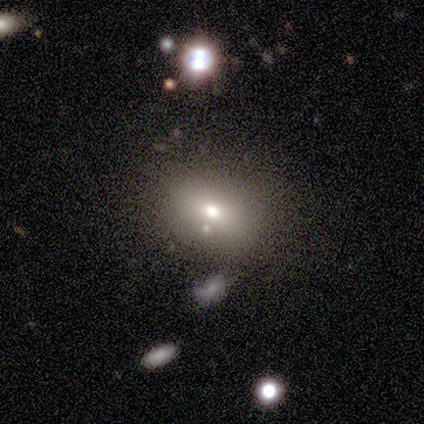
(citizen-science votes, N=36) Q: Smooth or featured?
A: smooth (64%); runner-up: featured or disk (19%)
Q: How rounded?
A: in between (83%); runner-up: round (13%)
Q: Merging?
A: none (70%); runner-up: merger (13%)